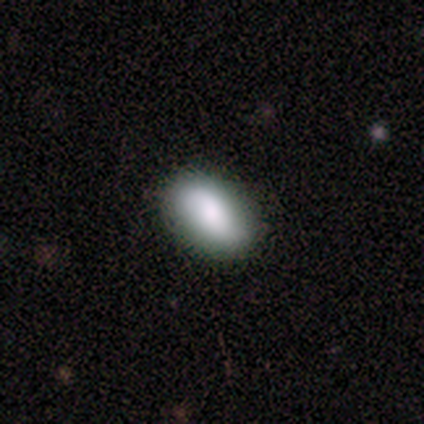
Q: Smooth or featured?
A: featured or disk (75%); runner-up: smooth (25%)
Q: Edge-on disk?
A: no (100%)
Q: Bar?
A: strong (33%); tied with: weak (33%); no (33%)
Q: Spiral arms?
A: yes (67%); runner-up: no (33%)
Q: Spiral winding?
A: loose (100%)
Q: Spiral arm count?
A: 2 (100%)
Q: Bulge size?
A: large (33%); tied with: moderate (33%); small (33%)
Q: Merging?
A: none (75%); runner-up: minor disturbance (25%)